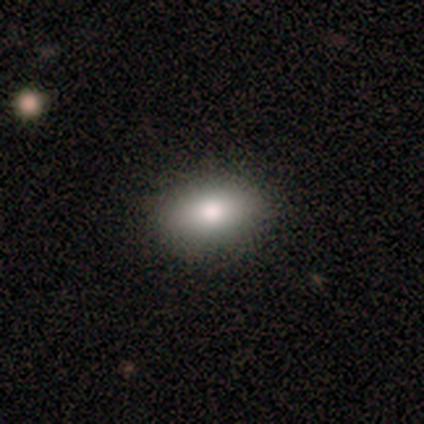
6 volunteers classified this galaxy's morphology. type=smooth (100%); roundness=in between (100%); merging=none (100%).